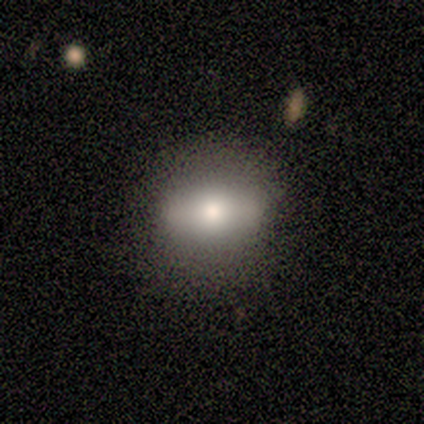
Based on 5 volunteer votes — Volunteers were most divided on "smooth or featured": smooth: 60%, featured or disk: 40%, star or artifact: 0%. More confident: merging — none (100%); how rounded — round (67%).